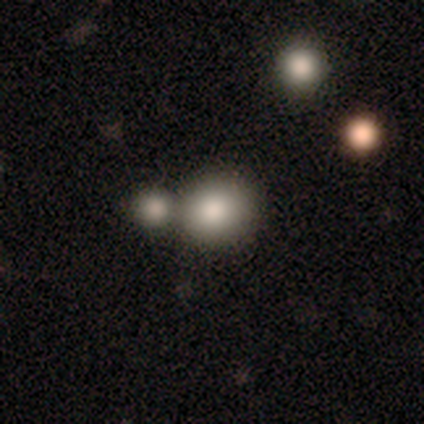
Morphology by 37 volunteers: A smooth galaxy with no disk features (84%) that is round (87%).

Vote fractions:
- Smooth or featured? smooth: 84% / featured or disk: 8% / star or artifact: 8%
- How rounded? round: 87% / in between: 13% / cigar-shaped: 0%
- Merging? merger: 79% / none: 0% / minor disturbance: 0% / major disturbance: 0%